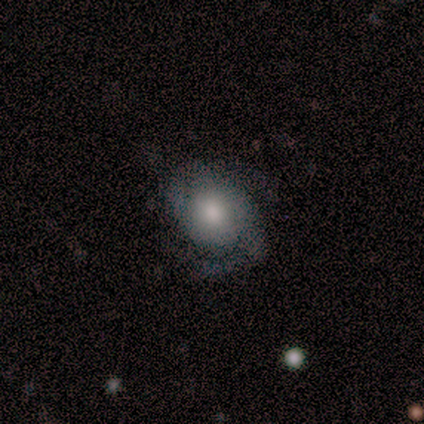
featured or disk 56%, smooth 38%, star or artifact 5%. Down the decision tree: edge-on disk — no (100%); bar — no (73%); spiral arms — yes (91%); spiral arm count — 2 (60%); spiral winding — medium (60%); bulge size — moderate (50%); merging — none (54%).